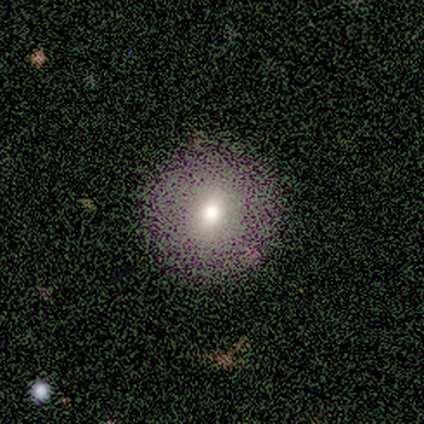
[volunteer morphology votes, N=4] This appears to be a smooth galaxy with no disk features (50%) that is round (100%). Merging: none (100%).